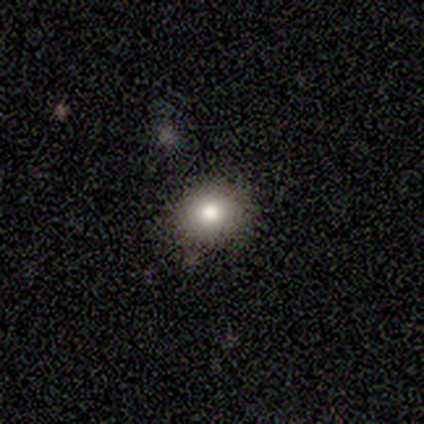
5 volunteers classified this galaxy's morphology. type=smooth (80%); roundness=round (75%); merging=none (50%, tied with minor disturbance).